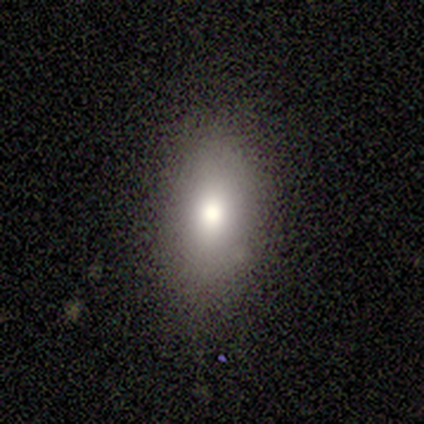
Volunteers were most divided on "smooth or featured": smooth: 60%, featured or disk: 20%, star or artifact: 20%. More confident: how rounded — in between (100%); merging — none (75%).